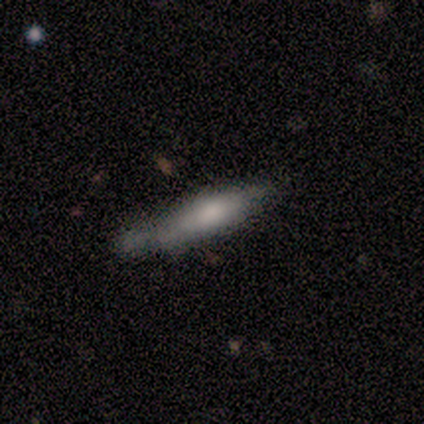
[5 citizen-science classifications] Overall: featured or disk (60%; smooth 40%). Edge-on disk: yes (100%). Edge-on bulge: rounded (100%). Merging: none (100%).